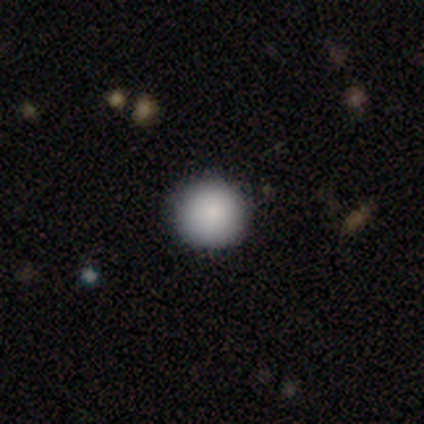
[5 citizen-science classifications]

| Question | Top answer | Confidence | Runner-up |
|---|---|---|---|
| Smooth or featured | smooth | 100% | — |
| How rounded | round | 80% | in between (20%) |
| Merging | none | 80% | minor disturbance (20%) |